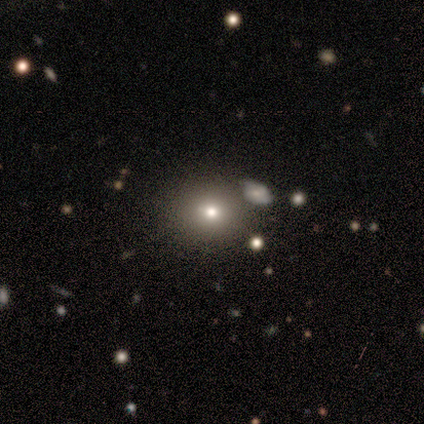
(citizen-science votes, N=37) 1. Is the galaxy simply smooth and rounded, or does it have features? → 68% smooth, 22% featured or disk, 11% star or artifact.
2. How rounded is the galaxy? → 76% round, 16% in between, 8% cigar-shaped.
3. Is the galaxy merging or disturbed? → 94% none, 3% major disturbance, 3% merger, 0% minor disturbance.